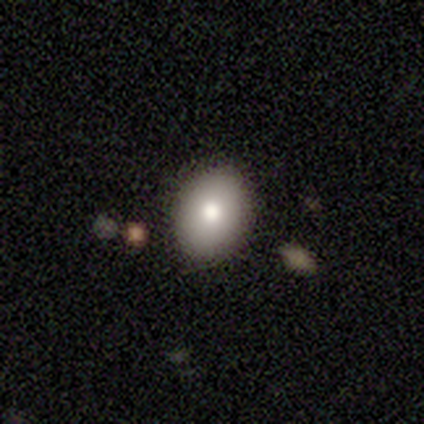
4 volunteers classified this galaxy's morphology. smooth-or-featured: smooth: 75% | featured or disk: 25% | star or artifact: 0%
  how-rounded: in between: 67% | round: 33% | cigar-shaped: 0%
  merging: none: 50% | minor disturbance: 25% | merger: 25% | major disturbance: 0%